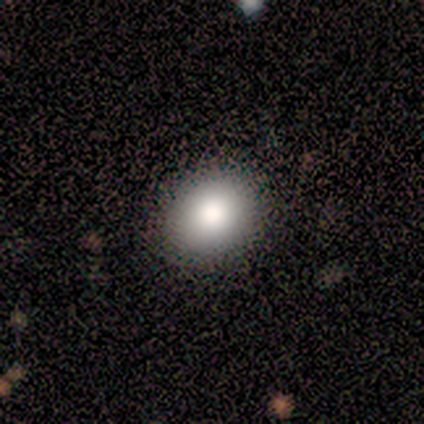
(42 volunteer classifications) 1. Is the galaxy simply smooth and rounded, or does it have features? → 83% smooth, 12% star or artifact, 5% featured or disk.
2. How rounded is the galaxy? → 54% round, 46% in between, 0% cigar-shaped.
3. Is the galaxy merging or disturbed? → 97% none, 3% minor disturbance, 0% major disturbance, 0% merger.